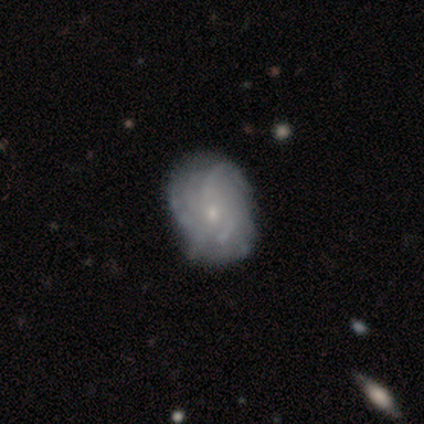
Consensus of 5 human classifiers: Volunteers were most divided on "spiral arm count" (2-way tie): more than 4: 40%, can't tell: 40%, 3: 20%, 1: 0%, 2: 0%, 4: 0%. More confident: smooth or featured — featured or disk (100%); edge-on disk — no (100%); spiral arms — yes (100%); bar — no (80%); merging — none (80%); spiral winding — tight (60%); bulge size — small (60%).